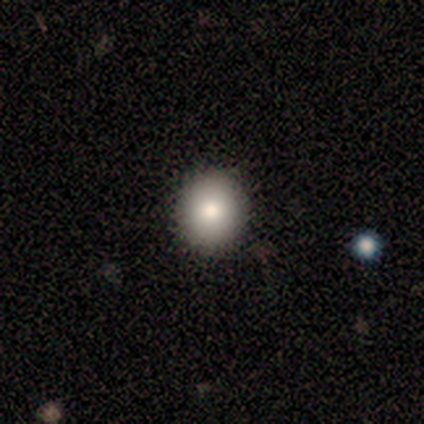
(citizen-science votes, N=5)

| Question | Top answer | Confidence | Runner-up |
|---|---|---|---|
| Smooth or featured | smooth | 80% | star or artifact (20%) |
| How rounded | round | 100% | — |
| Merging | none | 100% | — |